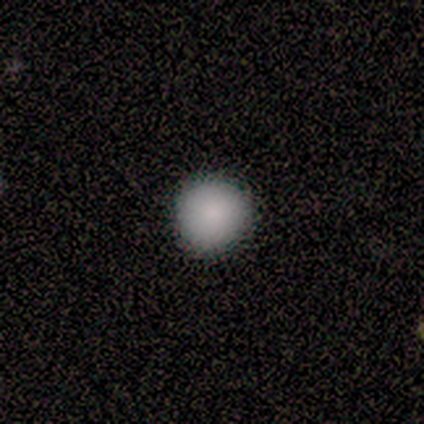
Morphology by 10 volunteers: smooth_or_featured: smooth (p=0.80) [alt: star or artifact p=0.20]
how_rounded: round (p=0.88) [alt: in between p=0.12]
merging: none (p=0.88) [alt: minor disturbance p=0.12]